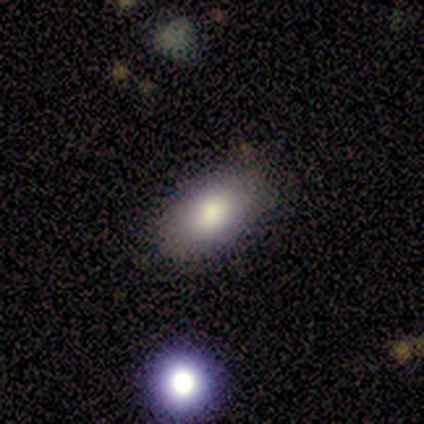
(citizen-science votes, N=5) Overall: smooth (80%). How rounded: in between (100%). Merging: none (75%).